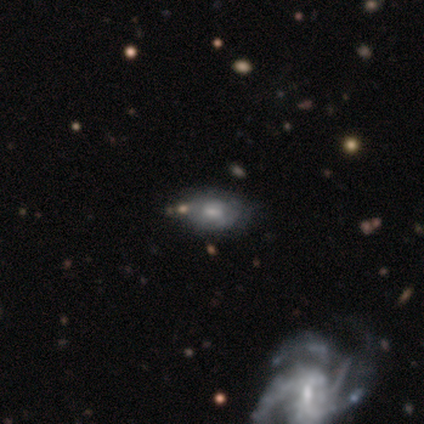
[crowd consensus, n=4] featured or disk 75%, smooth 25%, star or artifact 0%. Down the decision tree: edge-on disk — no (100%); bar — no (100%); spiral arms — yes (67%); spiral arm count — 2 (50%, tied with can't tell); spiral winding — tight (50%, tied with medium); bulge size — moderate (33%, tied with small and none); merging — none (50%).